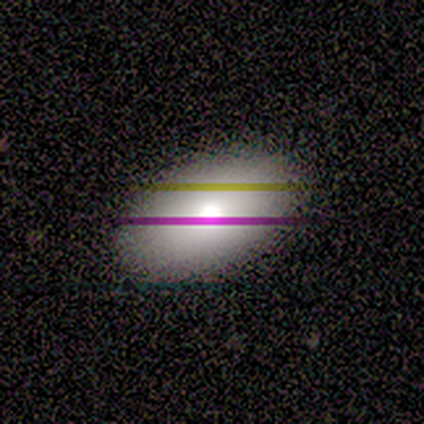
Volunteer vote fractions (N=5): smooth-or-featured: smooth: 60% | star or artifact: 40% | featured or disk: 0%
  how-rounded: in between: 100% | round: 0% | cigar-shaped: 0%
  merging: none: 100% | minor disturbance: 0% | major disturbance: 0% | merger: 0%